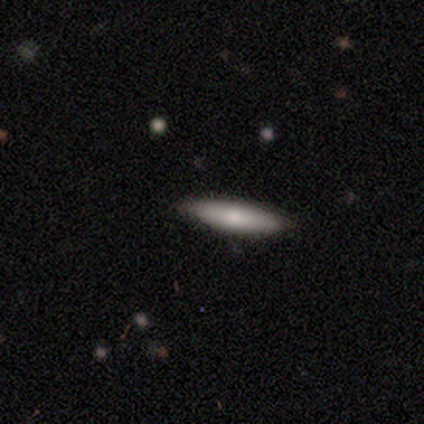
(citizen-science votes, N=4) Smooth or featured? smooth (50%, tied with featured or disk)
How rounded? cigar-shaped (100%)
Merging? none (100%)